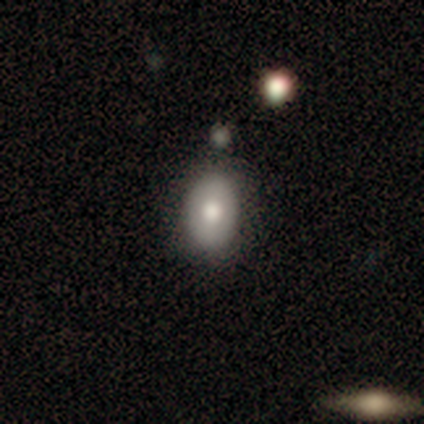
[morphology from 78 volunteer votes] This appears to be a smooth galaxy with no disk features (72%) that is in between round and cigar-shaped (84%). Merging: none (46%).